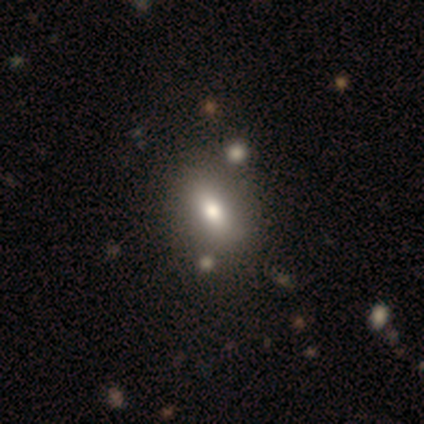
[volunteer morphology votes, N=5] type=smooth (80%); roundness=in between (100%); merging=none (100%).